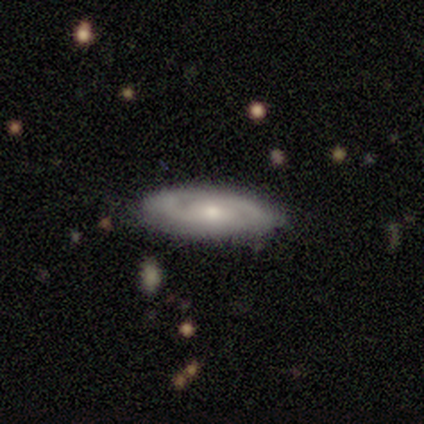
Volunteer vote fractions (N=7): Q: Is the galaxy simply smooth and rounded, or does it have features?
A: featured or disk — 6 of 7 (86%).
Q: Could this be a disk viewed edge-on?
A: no — 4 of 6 (67%).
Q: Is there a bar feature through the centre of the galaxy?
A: no — 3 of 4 (75%).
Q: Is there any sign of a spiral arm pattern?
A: yes — 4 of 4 (100%).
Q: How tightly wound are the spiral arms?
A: tight — 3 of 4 (75%).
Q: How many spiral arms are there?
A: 2 — 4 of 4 (100%).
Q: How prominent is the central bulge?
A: moderate — 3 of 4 (75%).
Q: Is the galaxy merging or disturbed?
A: none — 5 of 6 (83%).